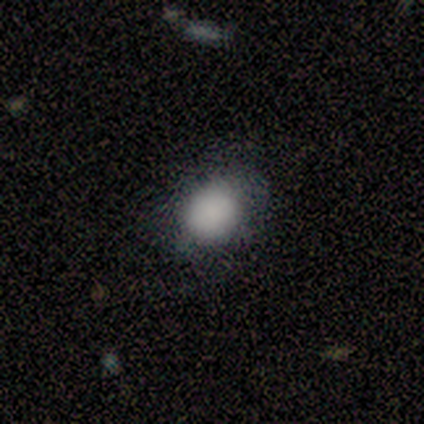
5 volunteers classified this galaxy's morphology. Smooth or featured? 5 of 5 (100%) said smooth. How rounded? 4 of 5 (80%) said round. Merging? 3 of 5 (60%) said none.